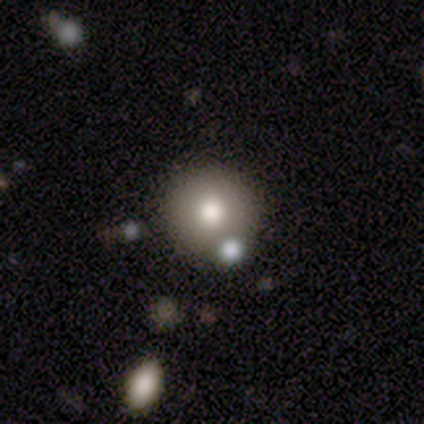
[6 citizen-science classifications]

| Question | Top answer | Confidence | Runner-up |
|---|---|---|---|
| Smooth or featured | smooth | 50% | star or artifact (33%) |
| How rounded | round | 100% | — |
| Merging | none | 50% | tied: merger (50%) |